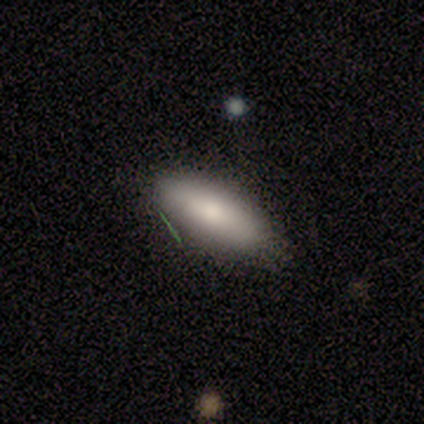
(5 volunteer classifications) smooth-or-featured: smooth: 80% | featured or disk: 20% | star or artifact: 0%
  how-rounded: in between: 50% (tied) | cigar-shaped: 50% (tied) | round: 0%
  merging: none: 100% | minor disturbance: 0% | major disturbance: 0% | merger: 0%